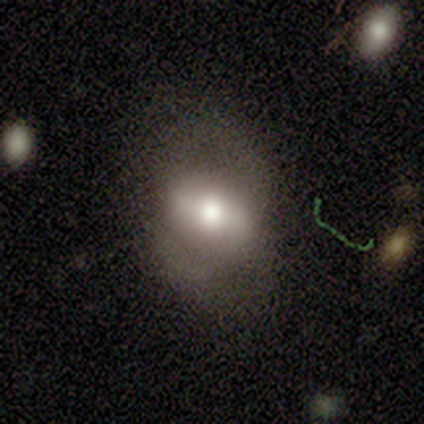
featured or disk 60%, smooth 40%, star or artifact 0%. Down the decision tree: edge-on disk — no (100%); bar — strong (33%, tied with weak and no); spiral arms — no (67%); bulge size — moderate (67%); merging — none (60%).